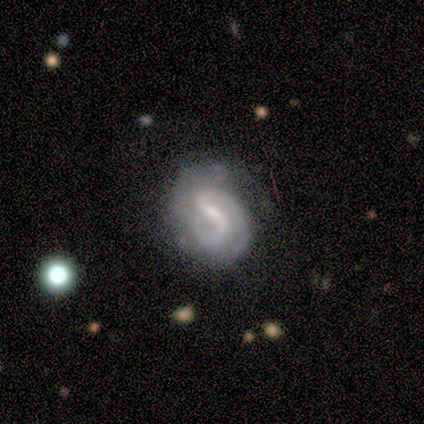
Smooth or featured? featured or disk (75%)
Edge-on disk? no (100%)
Bar? weak (67%)
Spiral arms? yes (100%)
Spiral winding? tight (100%)
Spiral arm count? 2 (67%)
Bulge size? moderate (67%)
Merging? none (50%, tied with minor disturbance)